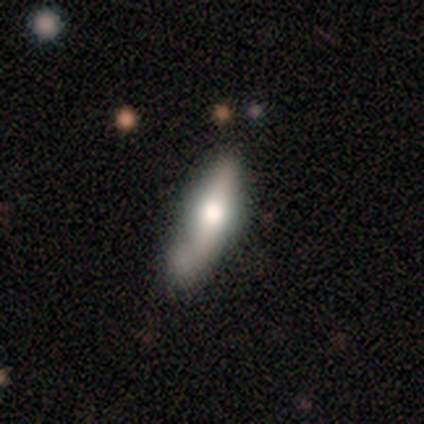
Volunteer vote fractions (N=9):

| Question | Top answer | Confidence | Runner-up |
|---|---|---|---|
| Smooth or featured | featured or disk | 67% | smooth (33%) |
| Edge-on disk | yes | 83% | no (17%) |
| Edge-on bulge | rounded | 100% | — |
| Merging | none | 33% | tied: minor disturbance (33%), merger (33%) |